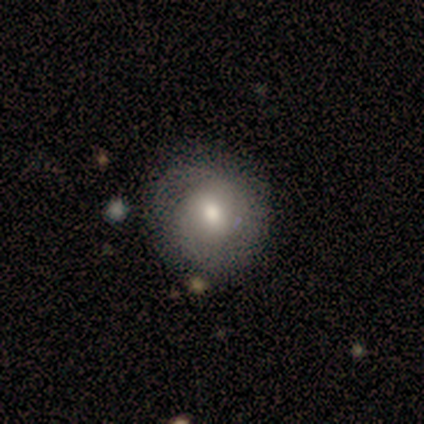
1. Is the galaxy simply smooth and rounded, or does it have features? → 100% smooth, 0% featured or disk, 0% star or artifact.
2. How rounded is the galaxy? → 100% round, 0% in between, 0% cigar-shaped.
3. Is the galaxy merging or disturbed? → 88% none, 12% minor disturbance, 0% major disturbance, 0% merger.